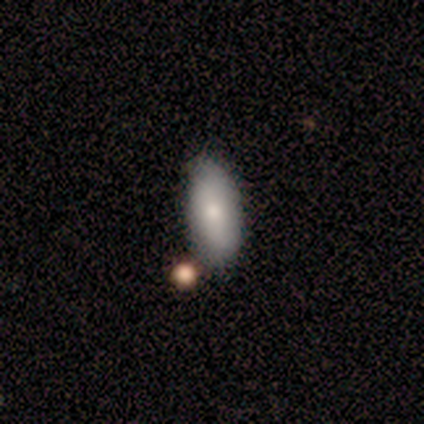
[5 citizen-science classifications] This is clearly a smooth galaxy (80%). How rounded: likely in between (75%). Merging: clearly none (80%).